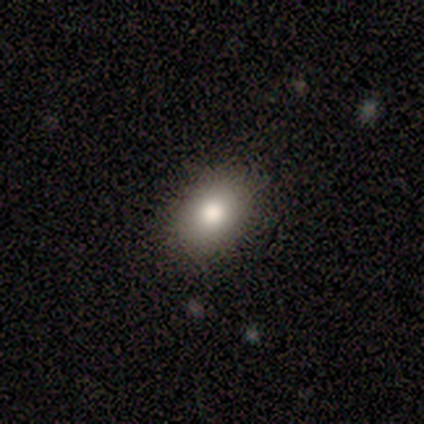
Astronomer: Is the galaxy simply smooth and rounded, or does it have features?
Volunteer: smooth — 84%.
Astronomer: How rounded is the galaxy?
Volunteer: in between — 78%.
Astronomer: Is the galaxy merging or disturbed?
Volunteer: none — 91%.